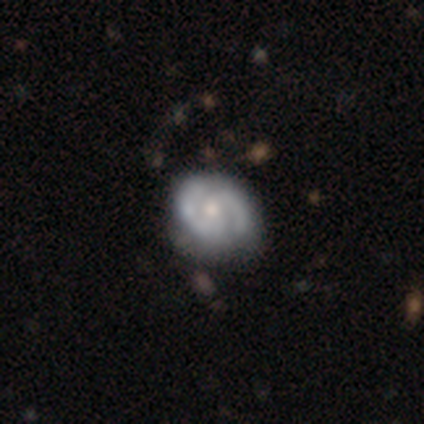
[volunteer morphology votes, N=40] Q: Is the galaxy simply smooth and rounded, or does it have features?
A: featured or disk — 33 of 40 (82%).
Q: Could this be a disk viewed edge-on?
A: no — 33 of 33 (100%).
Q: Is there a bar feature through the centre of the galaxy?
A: no — 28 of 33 (85%).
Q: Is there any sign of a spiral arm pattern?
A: yes — 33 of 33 (100%).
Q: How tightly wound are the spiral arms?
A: tight — 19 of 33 (58%).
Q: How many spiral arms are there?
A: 2 — 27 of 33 (82%).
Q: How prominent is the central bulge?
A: moderate — 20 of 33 (61%).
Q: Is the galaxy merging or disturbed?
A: none — 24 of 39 (62%).